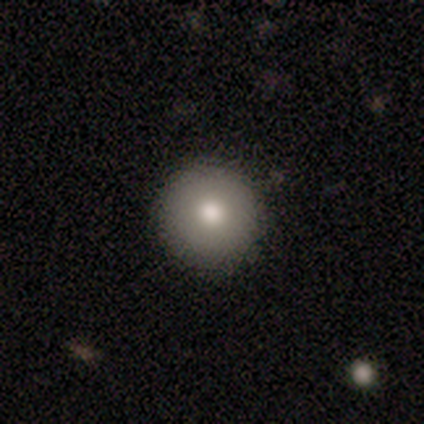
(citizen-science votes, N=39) smooth 79%, featured or disk 13%, star or artifact 8%. Down the decision tree: how rounded — round (94%); merging — none (86%).